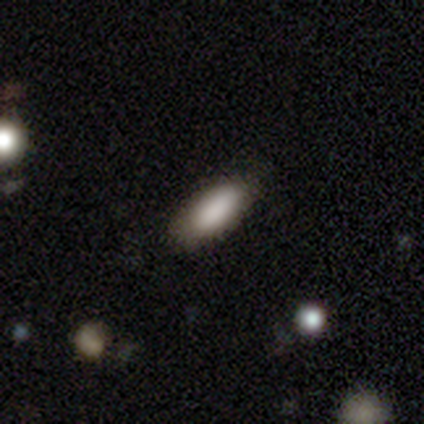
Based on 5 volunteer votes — Q: Smooth or featured?
A: smooth (100%)
Q: How rounded?
A: in between (60%); runner-up: round (20%)
Q: Merging?
A: none (100%)